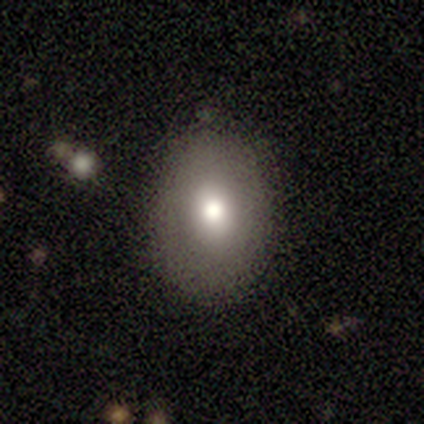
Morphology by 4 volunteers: A smooth galaxy with no disk features (50%) that is in between round and cigar-shaped (100%). Merging: none (100%).